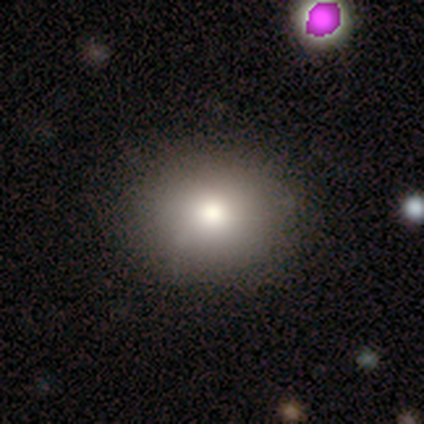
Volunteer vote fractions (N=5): Smooth or featured? 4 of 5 (80%) said smooth. How rounded? 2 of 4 (50%, tied with in between) said round. Merging? 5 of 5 (100%) said none.